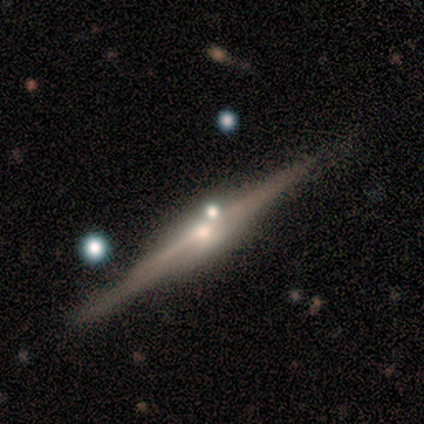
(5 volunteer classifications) Smooth or featured?
  - featured or disk: 80% *
  - smooth: 20%
  - star or artifact: 0%
Edge-on disk?
  - yes: 100% *
  - no: 0%
Edge-on bulge?
  - rounded: 100% *
  - boxy: 0%
  - none: 0%
Merging?
  - none: 60% *
  - minor disturbance: 20%
  - merger: 20%
  - major disturbance: 0%